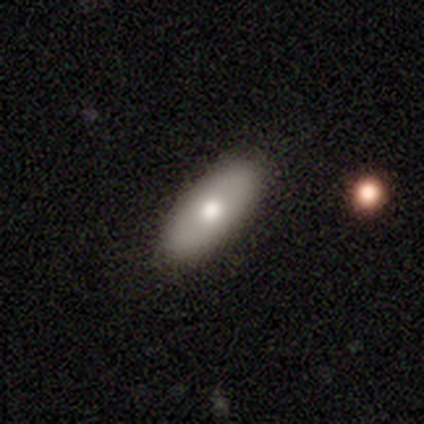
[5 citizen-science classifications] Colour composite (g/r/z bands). It shows a smooth galaxy with no disk features (100%) that is in between round and cigar-shaped (100%). Merging: none (100%).